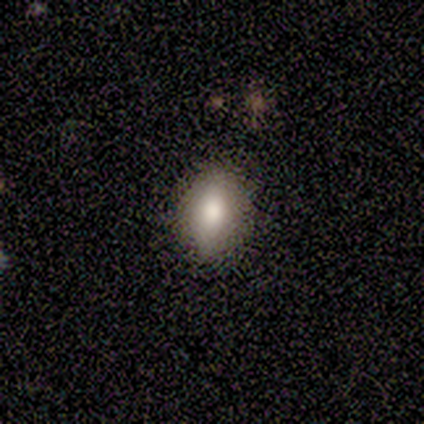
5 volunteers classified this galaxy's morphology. A smooth galaxy with no disk features (80%) that is in between round and cigar-shaped (100%). Merging: none (100%).